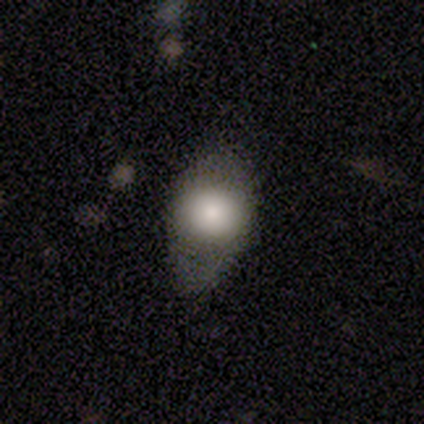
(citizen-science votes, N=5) A smooth galaxy with no disk features (80%) that is round (50%, tied with in between).

Vote fractions:
- Smooth or featured? smooth: 80% / featured or disk: 20% / star or artifact: 0%
- How rounded? round: 50% (tied) / in between: 50% (tied) / cigar-shaped: 0%
- Merging? none: 40% (tied) / major disturbance: 40% (tied) / minor disturbance: 20% / merger: 0%